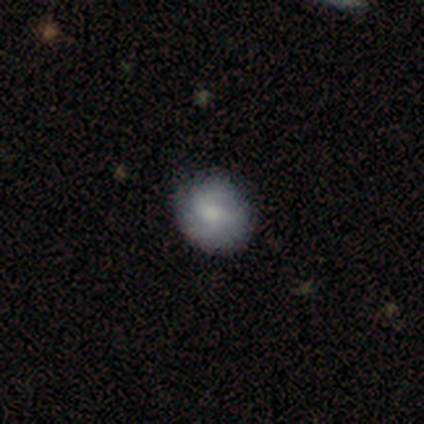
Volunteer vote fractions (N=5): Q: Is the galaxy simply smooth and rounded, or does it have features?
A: smooth — 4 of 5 (80%).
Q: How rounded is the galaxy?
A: round — 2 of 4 (50%, tied with in between).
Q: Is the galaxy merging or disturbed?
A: none — 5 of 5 (100%).